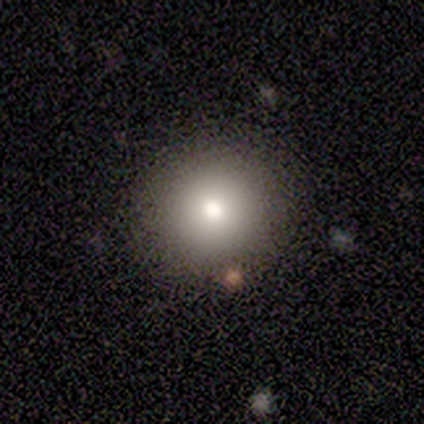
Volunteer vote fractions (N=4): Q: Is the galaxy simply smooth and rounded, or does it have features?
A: smooth — 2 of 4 (50%).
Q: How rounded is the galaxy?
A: round — 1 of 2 (50%, tied with in between).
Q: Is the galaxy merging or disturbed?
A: none — 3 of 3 (100%).